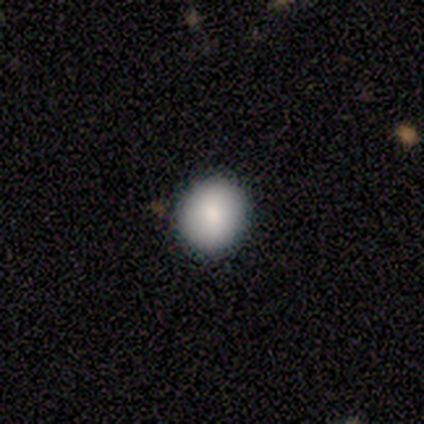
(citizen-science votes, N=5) Smooth or featured? 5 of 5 (100%) said smooth. How rounded? 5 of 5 (100%) said round. Merging? 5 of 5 (100%) said none.